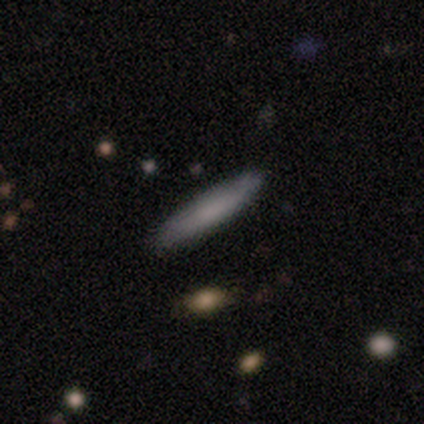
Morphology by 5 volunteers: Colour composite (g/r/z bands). It shows a smooth galaxy with no disk features (100%) that is cigar-shaped (100%). Merging: none (100%).